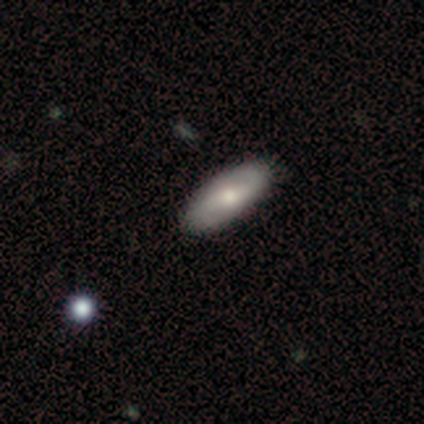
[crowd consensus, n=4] smooth-or-featured: smooth: 75% | featured or disk: 25% | star or artifact: 0%
  how-rounded: in between: 67% | cigar-shaped: 33% | round: 0%
  merging: none: 100% | minor disturbance: 0% | major disturbance: 0% | merger: 0%